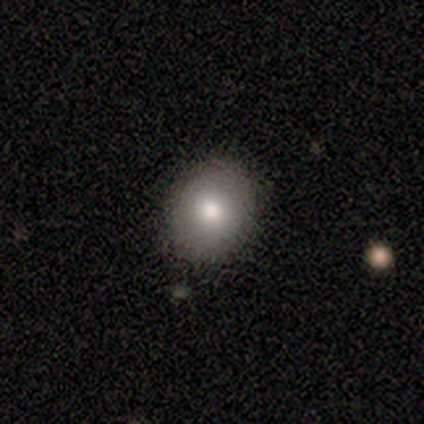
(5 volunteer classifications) This is clearly a smooth galaxy (100%). How rounded: clearly round (80%). Merging: likely none (60%).